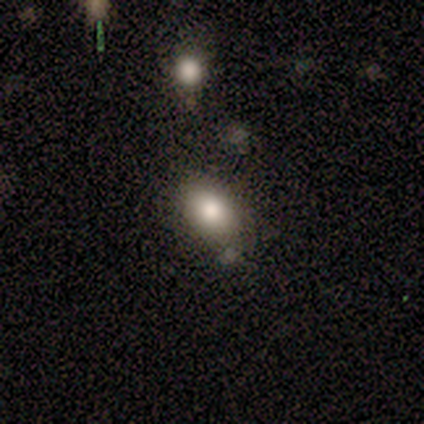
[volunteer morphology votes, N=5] Smooth or featured: smooth — 100%
How rounded: in between — 80% (round — 20%)
Merging: none — 80% (minor disturbance — 20%)